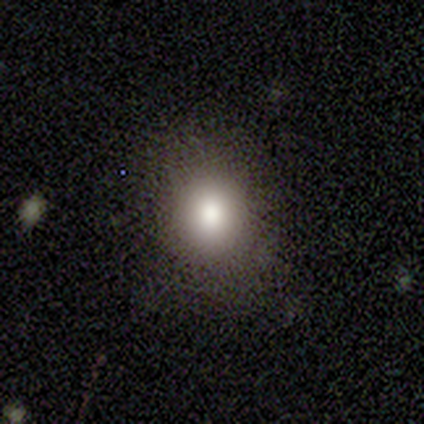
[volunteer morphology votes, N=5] type=star or artifact (60%).